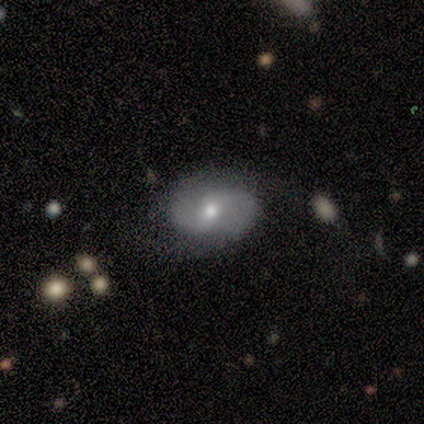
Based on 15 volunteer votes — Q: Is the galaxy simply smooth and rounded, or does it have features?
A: featured or disk — 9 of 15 (60%).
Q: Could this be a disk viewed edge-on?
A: no — 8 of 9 (89%).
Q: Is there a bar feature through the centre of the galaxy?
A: weak — 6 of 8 (75%).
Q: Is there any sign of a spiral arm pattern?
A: yes — 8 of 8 (100%).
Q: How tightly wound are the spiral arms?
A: medium — 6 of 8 (75%).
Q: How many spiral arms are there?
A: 2 — 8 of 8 (100%).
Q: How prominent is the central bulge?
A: moderate — 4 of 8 (50%, tied with small).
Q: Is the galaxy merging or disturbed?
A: none — 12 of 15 (80%).